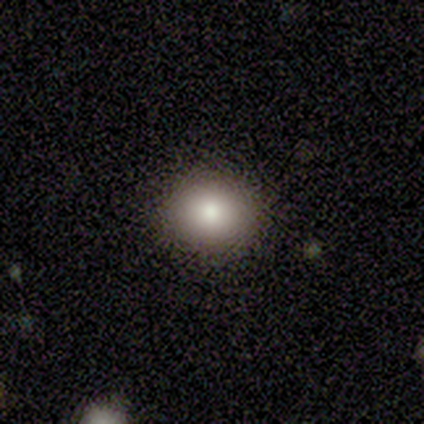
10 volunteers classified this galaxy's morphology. Volunteers were most divided on "how rounded": round: 56%, in between: 44%, cigar-shaped: 0%. More confident: smooth or featured — smooth (90%); merging — none (80%).